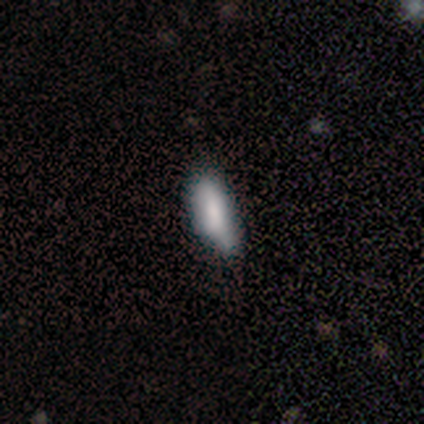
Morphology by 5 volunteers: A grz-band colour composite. It shows a smooth galaxy with no disk features (80%) that is in between round and cigar-shaped (75%). Merging: minor disturbance (60%).